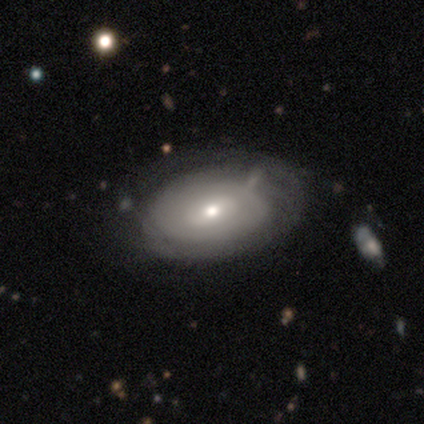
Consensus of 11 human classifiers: smooth_or_featured: featured or disk (p=0.73) [alt: smooth p=0.27]
disk_edge_on: no (p=1.00)
bar: weak (p=0.50) [tied with: no p=0.50]
has_spiral_arms: no (p=0.62) [alt: yes p=0.38]
bulge_size: moderate (p=0.75) [alt: small p=0.25]
merging: none (p=0.45) [alt: minor disturbance p=0.36]